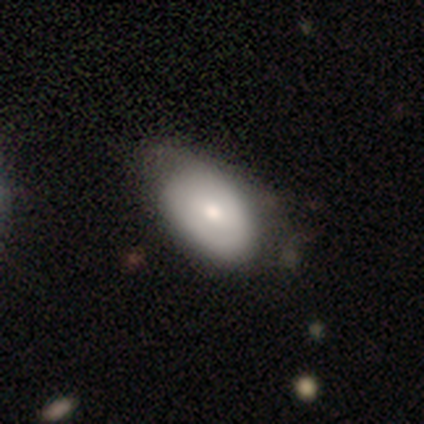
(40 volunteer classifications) Overall: smooth (75%). How rounded: in between (93%). Merging: minor disturbance (30%; none 28%).